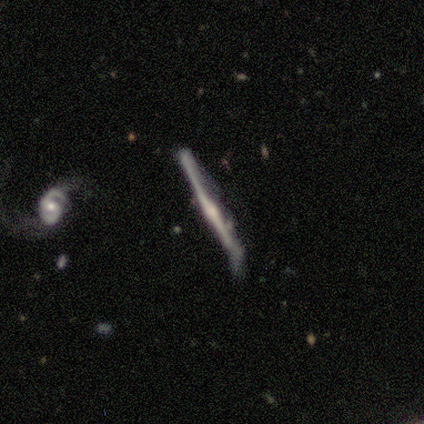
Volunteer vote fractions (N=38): Volunteers were most divided on "merging": none: 50%, minor disturbance: 29%, major disturbance: 15%, merger: 6%. More confident: edge-on disk — yes (93%); smooth or featured — featured or disk (74%); edge-on bulge — rounded (73%).